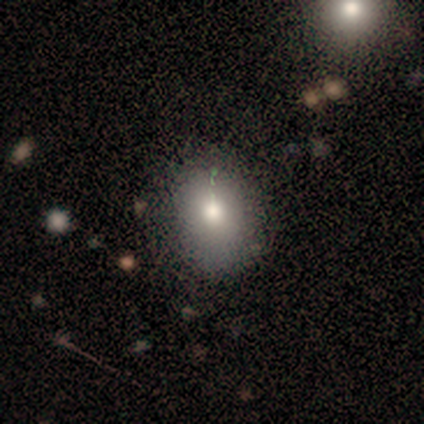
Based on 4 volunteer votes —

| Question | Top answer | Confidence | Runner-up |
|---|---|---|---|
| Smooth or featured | smooth | 75% | star or artifact (25%) |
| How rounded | in between | 67% | round (33%) |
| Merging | none | 67% | minor disturbance (33%) |